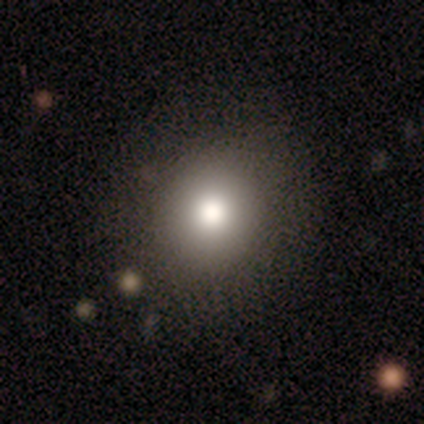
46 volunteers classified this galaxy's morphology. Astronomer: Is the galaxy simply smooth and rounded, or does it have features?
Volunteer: smooth — 83%.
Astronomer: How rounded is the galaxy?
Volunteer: round — 92%.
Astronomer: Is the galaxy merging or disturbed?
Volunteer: none — 85%.